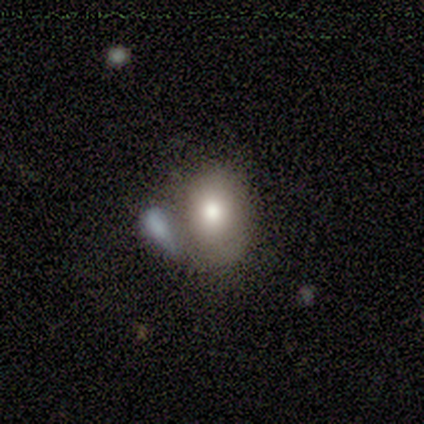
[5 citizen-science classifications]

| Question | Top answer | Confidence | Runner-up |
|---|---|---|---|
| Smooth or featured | smooth | 60% | featured or disk (20%) |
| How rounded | in between | 100% | — |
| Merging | none | 50% | minor disturbance (25%) |